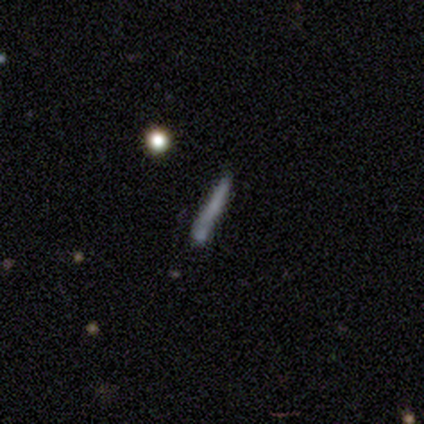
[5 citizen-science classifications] Q: Smooth or featured?
A: smooth (60%); runner-up: featured or disk (40%)
Q: How rounded?
A: cigar-shaped (100%)
Q: Merging?
A: none (60%); runner-up: major disturbance (20%)